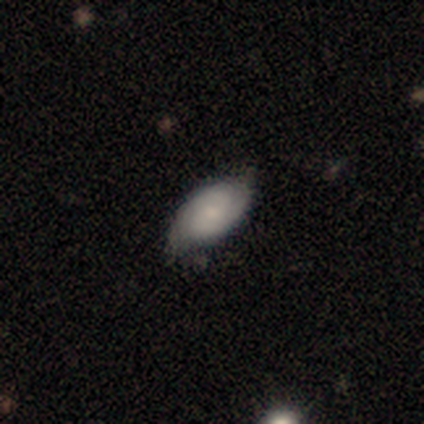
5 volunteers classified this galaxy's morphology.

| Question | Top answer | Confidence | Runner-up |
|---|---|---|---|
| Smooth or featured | featured or disk | 60% | smooth (40%) |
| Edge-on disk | no | 100% | — |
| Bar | no | 100% | — |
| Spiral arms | yes | 67% | no (33%) |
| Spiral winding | tight | 50% | tied: medium (50%) |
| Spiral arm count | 2 | 100% | — |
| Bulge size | moderate | 67% | small (33%) |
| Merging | none | 60% | minor disturbance (20%) |